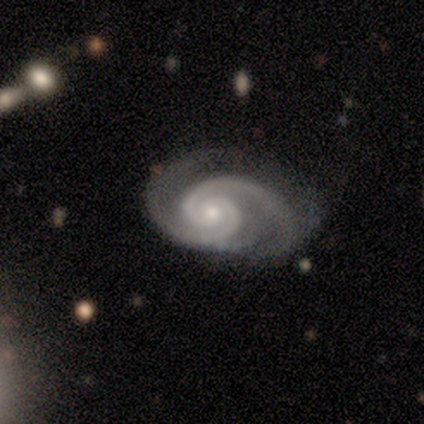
Smooth or featured: featured or disk — 100%
Edge-on disk: no — 100%
Bar: no — 86% (strong — 14%)
Spiral arms: yes — 100%
Spiral winding: tight — 43% (tied with medium — 43%)
Spiral arm count: 2 — 100%
Bulge size: moderate — 57% (small — 43%)
Merging: none — 71% (minor disturbance — 29%)